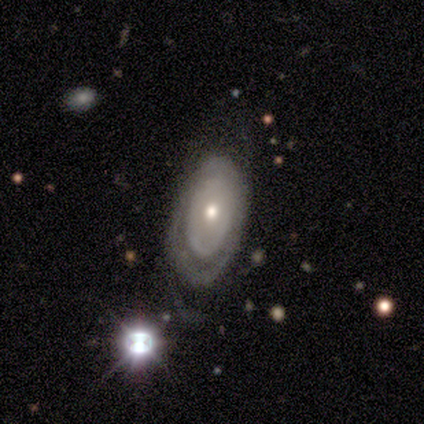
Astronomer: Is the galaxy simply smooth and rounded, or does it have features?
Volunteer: featured or disk — 80%.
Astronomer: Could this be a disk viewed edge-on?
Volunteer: no — 100%.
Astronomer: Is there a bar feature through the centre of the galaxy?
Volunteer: no — 100%.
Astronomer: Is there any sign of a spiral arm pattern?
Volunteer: yes — 50%, tied with no at 50%.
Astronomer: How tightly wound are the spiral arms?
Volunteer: tight — 50%, tied with loose at 50%.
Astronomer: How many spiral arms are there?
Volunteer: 2 — 50%, tied with can't tell at 50%.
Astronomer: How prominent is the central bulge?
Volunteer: moderate — 75%.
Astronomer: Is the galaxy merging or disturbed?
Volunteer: minor disturbance — 80%.